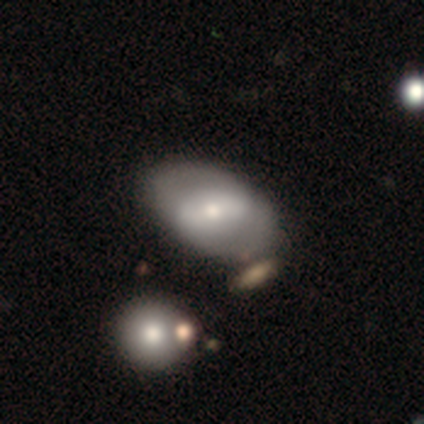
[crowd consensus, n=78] Smooth or featured? 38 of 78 (49%) said smooth. How rounded? 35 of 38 (92%) said in between. Merging? 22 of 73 (30%) said none.